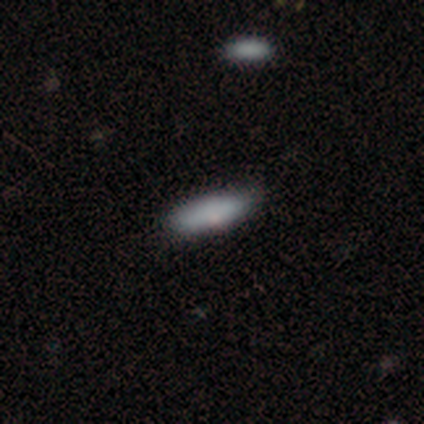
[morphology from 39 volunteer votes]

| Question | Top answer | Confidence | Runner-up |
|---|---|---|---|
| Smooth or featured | smooth | 87% | featured or disk (10%) |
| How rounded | in between | 62% | cigar-shaped (38%) |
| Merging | none | 84% | minor disturbance (13%) |